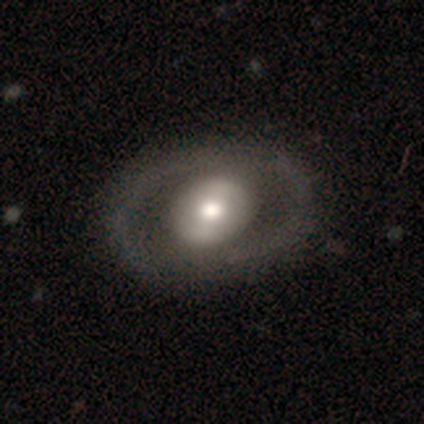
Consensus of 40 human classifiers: Smooth or featured? 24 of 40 (60%) said featured or disk. Edge-on disk? 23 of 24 (96%) said no. Bar? 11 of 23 (48%) said no. Spiral arms? 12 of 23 (52%) said no. Bulge size? 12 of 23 (52%) said moderate. Merging? 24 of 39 (62%) said none.